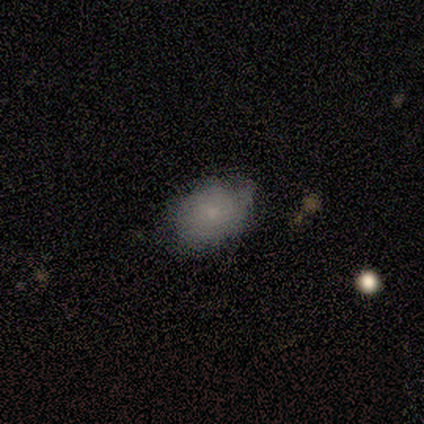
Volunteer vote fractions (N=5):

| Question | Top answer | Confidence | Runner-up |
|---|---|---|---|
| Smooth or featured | smooth | 80% | star or artifact (20%) |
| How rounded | in between | 75% | round (25%) |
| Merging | none | 100% | — |